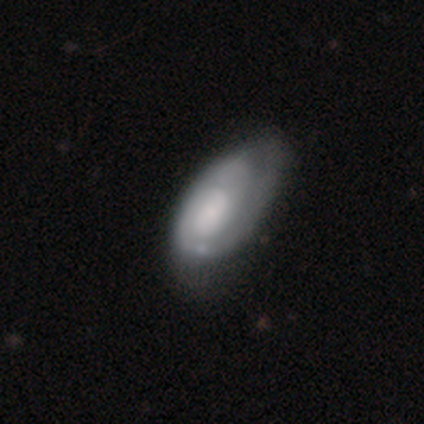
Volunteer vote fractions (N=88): featured or disk 59%, smooth 38%, star or artifact 3%. Down the decision tree: edge-on disk — no (92%); bar — no (69%); spiral arms — yes (77%); spiral arm count — 1 (32%, tied with 2 and can't tell); spiral winding — tight (59%); bulge size — small (42%); merging — minor disturbance (41%).